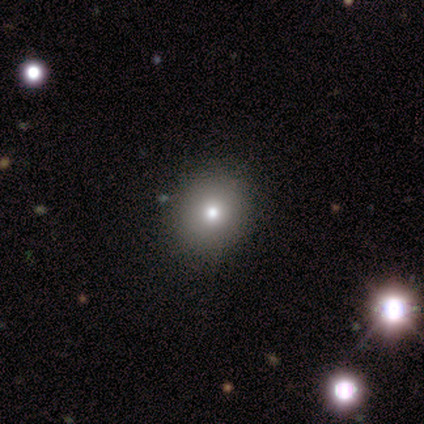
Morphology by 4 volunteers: A smooth galaxy with no disk features (50%, tied with featured or disk) that is round (100%). Merging: none (75%).